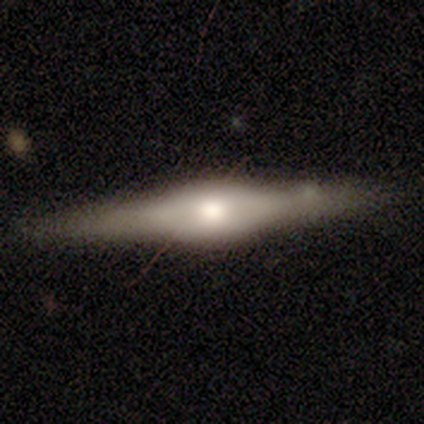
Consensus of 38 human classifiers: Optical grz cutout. It shows a featured or disk galaxy (74%) viewed edge-on (93%) with a rounded central bulge (77%). Merging: none (64%).